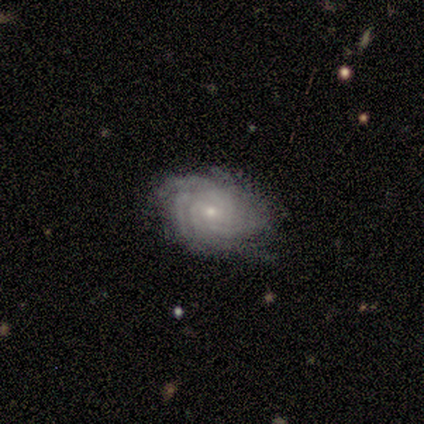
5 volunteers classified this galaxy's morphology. featured or disk 100%, smooth 0%, star or artifact 0%. Down the decision tree: edge-on disk — no (100%); bar — no (60%); spiral arms — yes (100%); spiral arm count — 4 (80%); spiral winding — tight (80%); bulge size — small (60%); merging — none (100%).